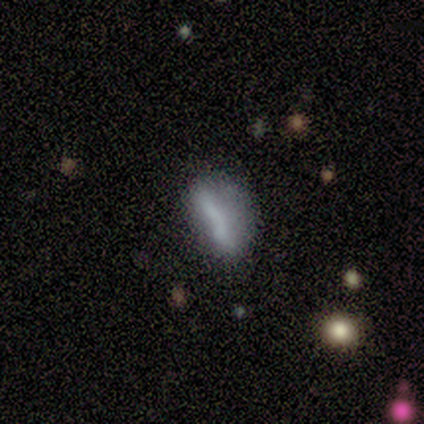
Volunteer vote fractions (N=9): This is possibly a featured or disk galaxy (56%). It is clearly not viewed edge-on (100%). Bar: clearly no (80%). Spiral arm pattern: clearly no (100%). Central bulge: likely none (60%). Merging: possibly none (50%).